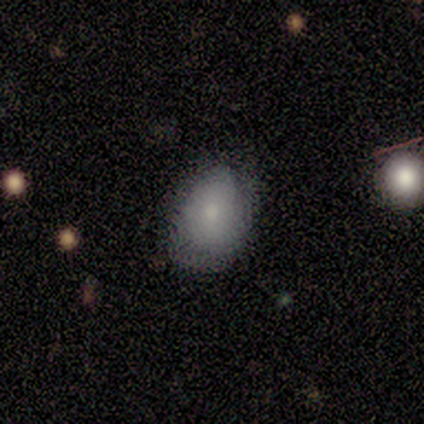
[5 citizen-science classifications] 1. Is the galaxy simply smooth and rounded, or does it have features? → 60% smooth, 20% featured or disk, 20% star or artifact.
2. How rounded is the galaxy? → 67% in between, 33% round, 0% cigar-shaped.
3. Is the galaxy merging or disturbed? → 75% none, 25% minor disturbance, 0% major disturbance, 0% merger.